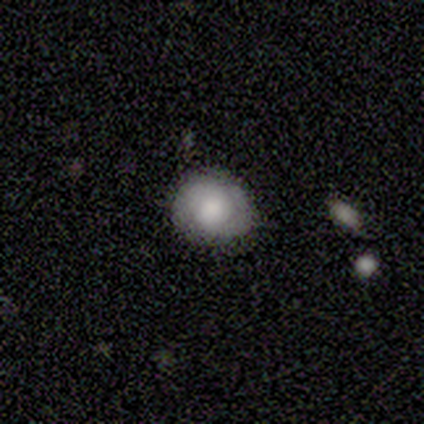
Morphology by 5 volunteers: smooth 80%, star or artifact 20%, featured or disk 0%. Down the decision tree: how rounded — round (50%, tied with in between); merging — none (75%).